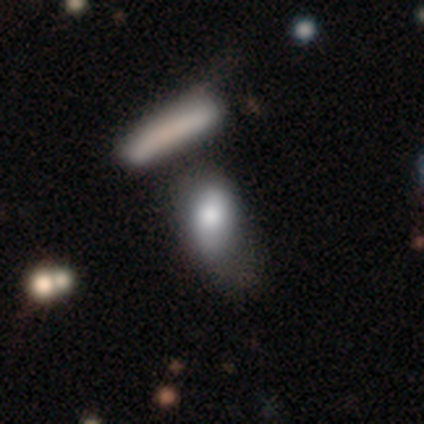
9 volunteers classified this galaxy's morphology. Volunteers were most divided on "merging" (2-way tie): minor disturbance: 33%, merger: 33%, major disturbance: 22%, none: 11%. More confident: how rounded — in between (100%); smooth or featured — smooth (89%).